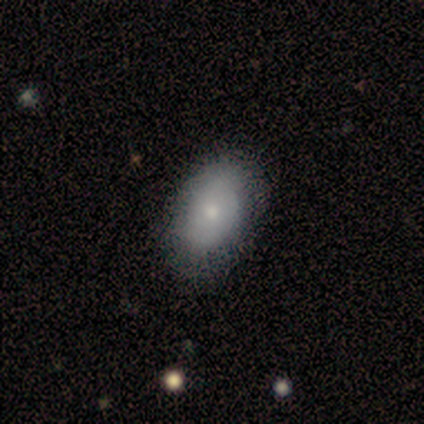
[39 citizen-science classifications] This appears to be a smooth galaxy with no disk features (69%) that is in between round and cigar-shaped (89%). Merging: none (58%).